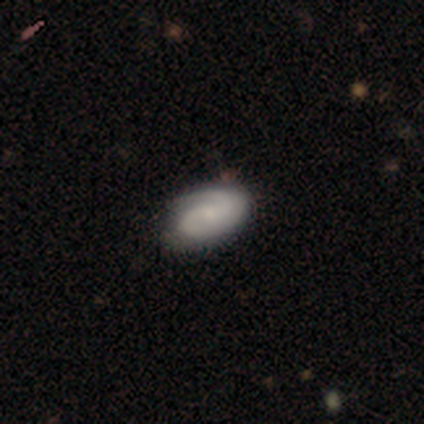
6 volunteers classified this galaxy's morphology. A featured or disk galaxy (67%) with a weak bar (50%), 2 (75%) medium (75%) spiral arms (100%) and a small central bulge (100%). Merging: none (67%).